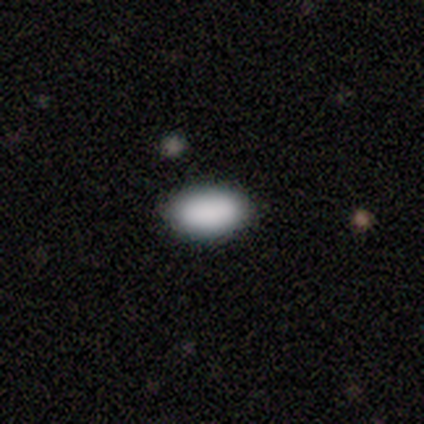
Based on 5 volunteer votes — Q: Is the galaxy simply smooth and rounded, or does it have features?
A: smooth — 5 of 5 (100%).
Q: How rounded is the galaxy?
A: in between — 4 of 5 (80%).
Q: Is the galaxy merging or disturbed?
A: none — 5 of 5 (100%).